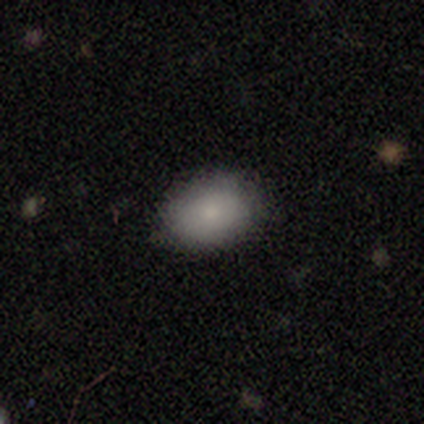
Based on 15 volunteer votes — A smooth galaxy with no disk features (87%) that is in between round and cigar-shaped (77%).

Vote fractions:
- Smooth or featured? smooth: 87% / featured or disk: 13% / star or artifact: 0%
- How rounded? in between: 77% / round: 23% / cigar-shaped: 0%
- Merging? none: 87% / minor disturbance: 13% / major disturbance: 0% / merger: 0%